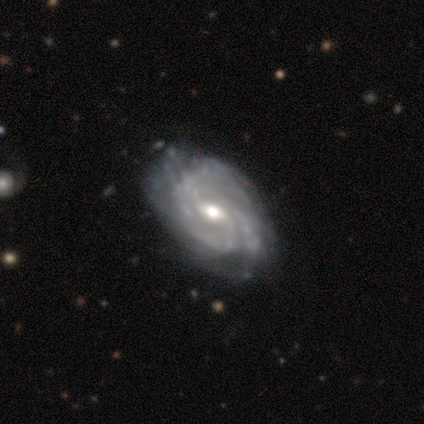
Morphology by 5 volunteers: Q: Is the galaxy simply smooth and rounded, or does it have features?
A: featured or disk — 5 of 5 (100%).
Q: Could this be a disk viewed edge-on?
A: no — 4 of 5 (80%).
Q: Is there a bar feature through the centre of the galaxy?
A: weak — 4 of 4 (100%).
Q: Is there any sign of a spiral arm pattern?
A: yes — 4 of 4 (100%).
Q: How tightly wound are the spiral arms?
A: tight — 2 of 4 (50%, tied with medium).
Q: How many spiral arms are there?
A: can't tell — 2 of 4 (50%).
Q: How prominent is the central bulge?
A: moderate — 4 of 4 (100%).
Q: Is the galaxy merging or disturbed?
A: none — 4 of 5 (80%).